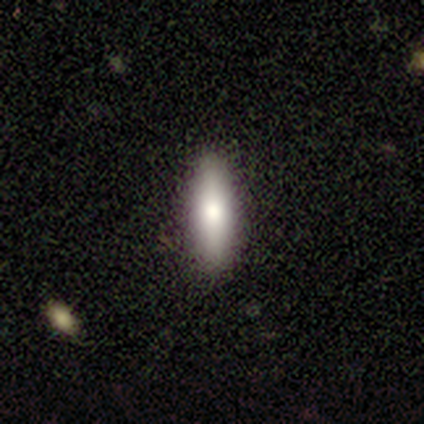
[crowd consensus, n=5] smooth 80%, featured or disk 20%, star or artifact 0%. Down the decision tree: how rounded — cigar-shaped (75%); merging — none (100%).